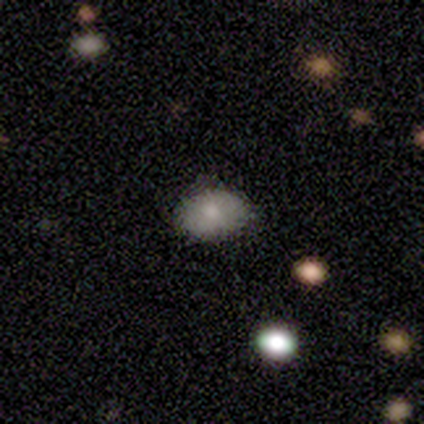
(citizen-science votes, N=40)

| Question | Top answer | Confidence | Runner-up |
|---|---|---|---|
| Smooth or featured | smooth | 88% | star or artifact (8%) |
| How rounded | in between | 86% | round (14%) |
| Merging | none | 92% | minor disturbance (5%) |